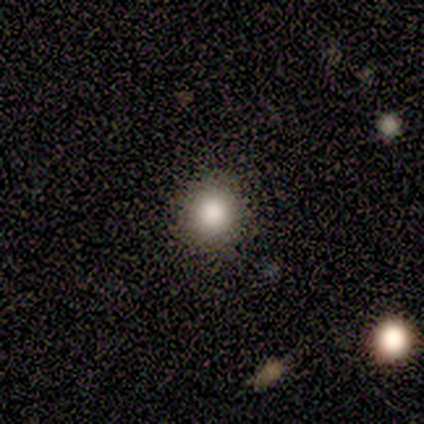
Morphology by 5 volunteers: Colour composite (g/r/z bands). It shows a smooth galaxy with no disk features (100%) that is round (100%). Merging: none (100%).